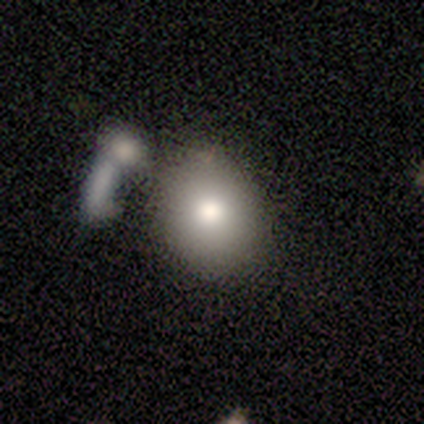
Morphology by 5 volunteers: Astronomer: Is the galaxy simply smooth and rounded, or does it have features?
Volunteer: smooth — 100%.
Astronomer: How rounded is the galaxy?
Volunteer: round — 80%.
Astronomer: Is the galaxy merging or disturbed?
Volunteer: none — 60%.